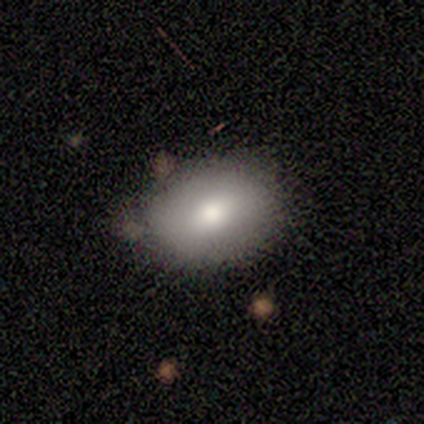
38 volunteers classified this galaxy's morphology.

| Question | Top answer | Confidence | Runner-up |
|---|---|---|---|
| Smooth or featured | smooth | 71% | featured or disk (18%) |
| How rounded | in between | 74% | round (26%) |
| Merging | none | 71% | minor disturbance (26%) |